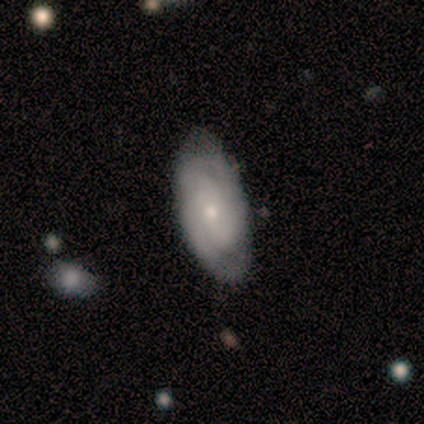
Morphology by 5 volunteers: Smooth or featured? smooth (40%, tied with featured or disk)
How rounded? in between (100%)
Merging? none (100%)